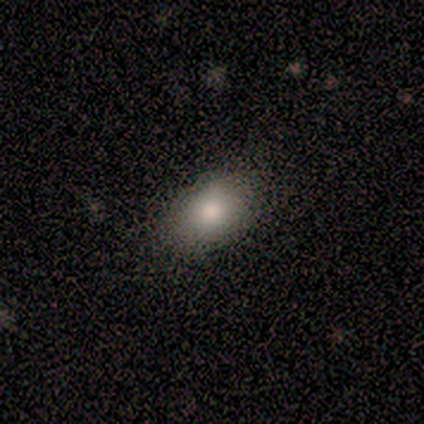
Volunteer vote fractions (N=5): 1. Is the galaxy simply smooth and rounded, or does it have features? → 80% smooth, 20% featured or disk, 0% star or artifact.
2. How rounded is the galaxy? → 100% in between, 0% round, 0% cigar-shaped.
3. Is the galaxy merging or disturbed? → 60% none, 20% minor disturbance, 20% major disturbance, 0% merger.